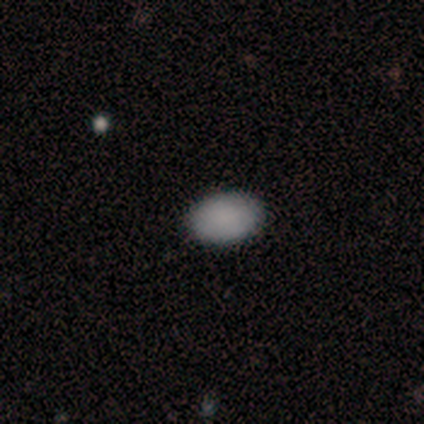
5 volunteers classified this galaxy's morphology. This appears to be a smooth galaxy with no disk features (100%) that is in between round and cigar-shaped (80%). Merging: none (100%).